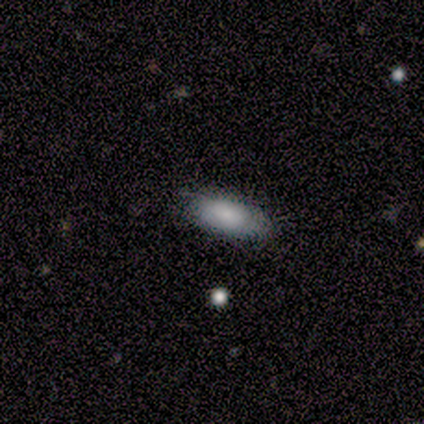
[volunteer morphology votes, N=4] This is likely a smooth galaxy (75%). How rounded: clearly in between (100%). Merging: likely none (67%).